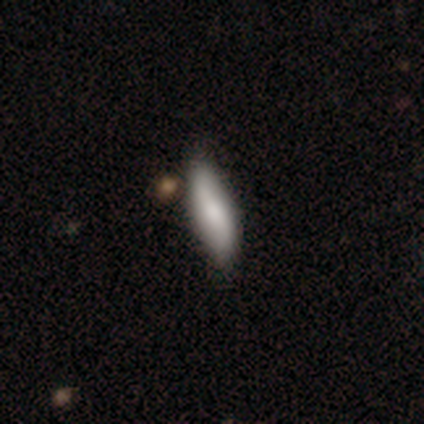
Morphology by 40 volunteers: type=smooth (57%); roundness=cigar-shaped (52%); merging=none (49%).